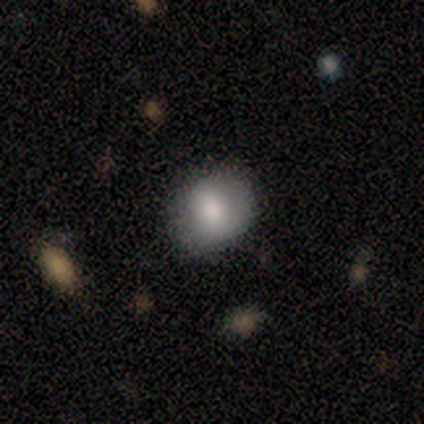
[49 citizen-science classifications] Q: Smooth or featured?
A: smooth (78%); runner-up: featured or disk (18%)
Q: How rounded?
A: round (71%); runner-up: in between (29%)
Q: Merging?
A: none (85%); runner-up: minor disturbance (15%)